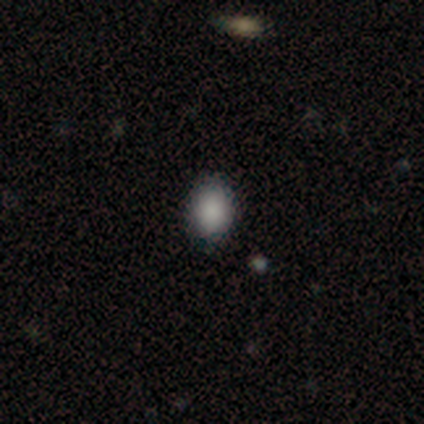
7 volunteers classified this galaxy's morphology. Smooth or featured? 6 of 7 (86%) said smooth. How rounded? 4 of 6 (67%) said in between. Merging? 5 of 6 (83%) said none.